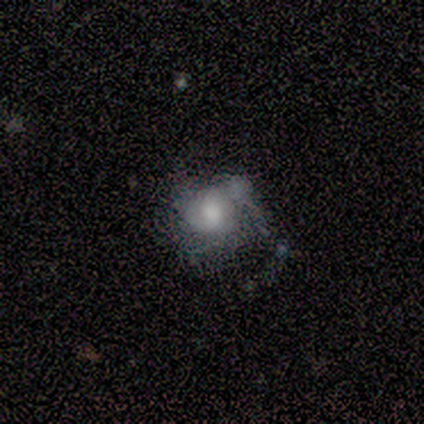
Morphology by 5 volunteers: Q: Smooth or featured?
A: smooth (60%); runner-up: featured or disk (40%)
Q: How rounded?
A: round (100%)
Q: Merging?
A: none (60%); runner-up: minor disturbance (20%)